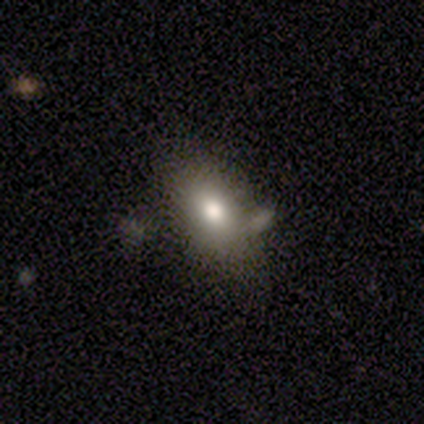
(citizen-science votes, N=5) Smooth or featured? 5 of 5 (100%) said smooth. How rounded? 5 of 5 (100%) said in between. Merging? 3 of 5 (60%) said none.